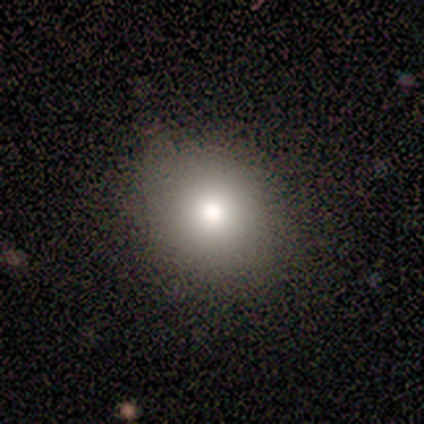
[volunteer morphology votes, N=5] type=smooth (100%); roundness=round (60%); merging=none (80%).